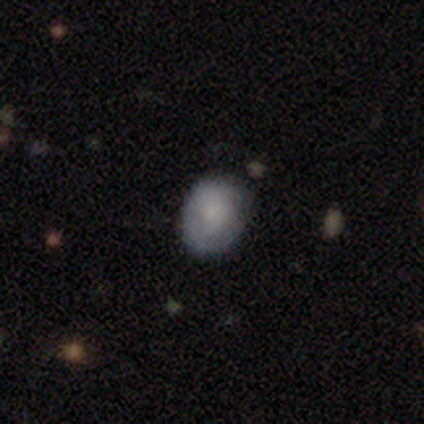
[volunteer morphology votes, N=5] Smooth or featured?
  - smooth: 80% *
  - featured or disk: 20%
  - star or artifact: 0%
How rounded?
  - in between: 100% *
  - round: 0%
  - cigar-shaped: 0%
Merging?
  - minor disturbance: 80% *
  - none: 20%
  - major disturbance: 0%
  - merger: 0%